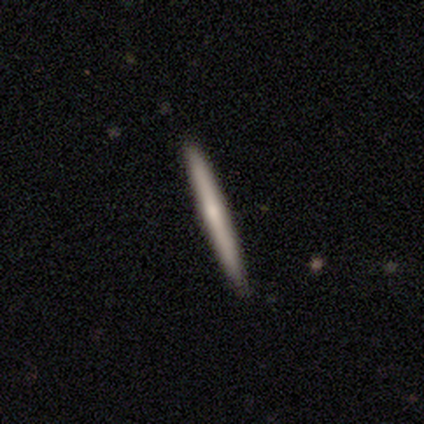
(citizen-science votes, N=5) A smooth galaxy with no disk features (40%, tied with featured or disk) that is cigar-shaped (100%). Merging: none (100%).